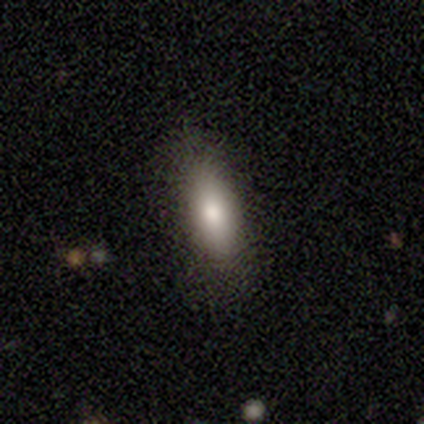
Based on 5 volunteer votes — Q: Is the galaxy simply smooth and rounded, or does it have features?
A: smooth — 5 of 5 (100%).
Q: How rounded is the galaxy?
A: in between — 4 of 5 (80%).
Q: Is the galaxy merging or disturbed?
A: none — 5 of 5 (100%).